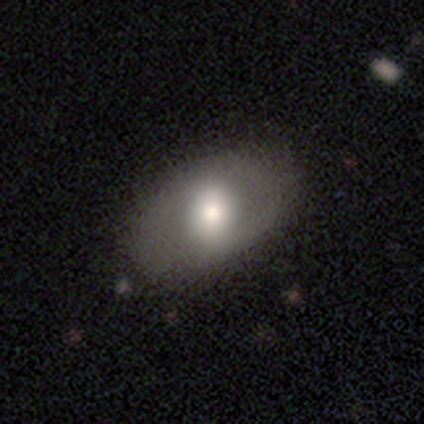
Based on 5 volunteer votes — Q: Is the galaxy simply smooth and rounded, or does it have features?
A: smooth — 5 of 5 (100%).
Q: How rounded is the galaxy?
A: in between — 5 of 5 (100%).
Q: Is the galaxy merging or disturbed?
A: none — 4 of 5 (80%).